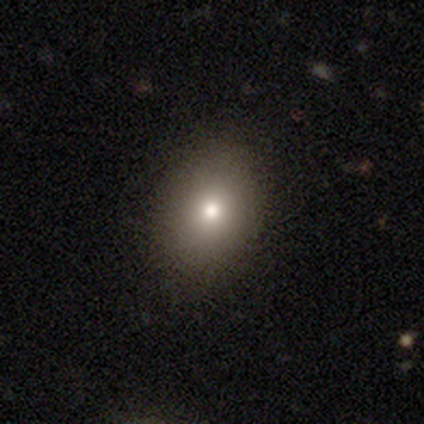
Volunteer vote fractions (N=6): Smooth or featured: smooth — 83% (featured or disk — 17%)
How rounded: in between — 100%
Merging: none — 83% (minor disturbance — 17%)